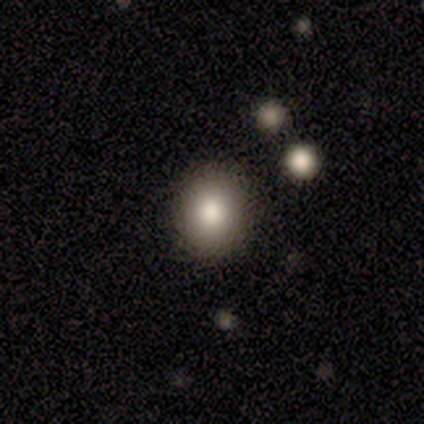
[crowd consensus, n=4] Smooth or featured? 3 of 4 (75%) said smooth. How rounded? 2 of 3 (67%) said round. Merging? 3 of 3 (100%) said none.